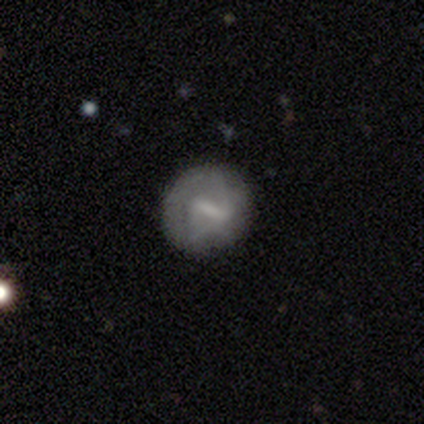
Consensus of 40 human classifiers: Overall: featured or disk (45%; smooth 42%). Edge-on disk: no (100%). Bar: strong (50%; weak 39%). Spiral arms: no (72%). Bulge size: none (50%; small 28%). Merging: none (69%; minor disturbance 31%).